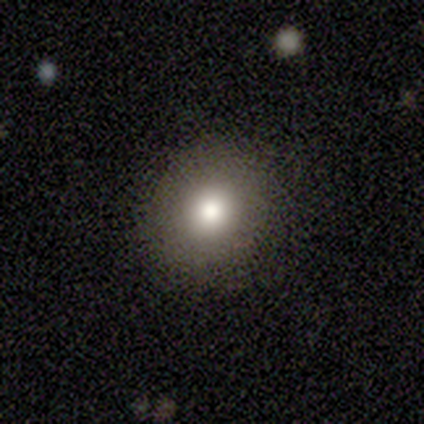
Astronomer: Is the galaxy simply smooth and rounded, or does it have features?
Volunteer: smooth — 80%.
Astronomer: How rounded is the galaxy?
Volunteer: round — 75%.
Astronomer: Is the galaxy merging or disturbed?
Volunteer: none — 100%.